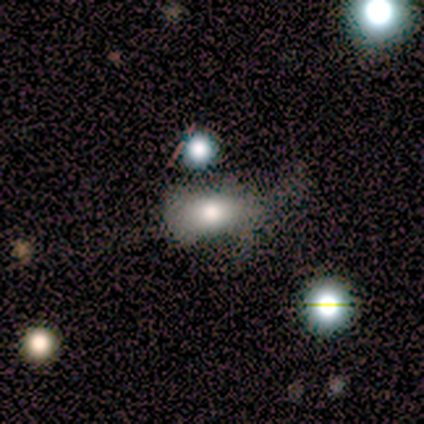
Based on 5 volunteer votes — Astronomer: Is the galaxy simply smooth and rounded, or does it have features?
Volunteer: smooth — 80%.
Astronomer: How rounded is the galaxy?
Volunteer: in between — 100%.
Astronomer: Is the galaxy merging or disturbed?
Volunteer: major disturbance — 40%, tied with merger at 40%.